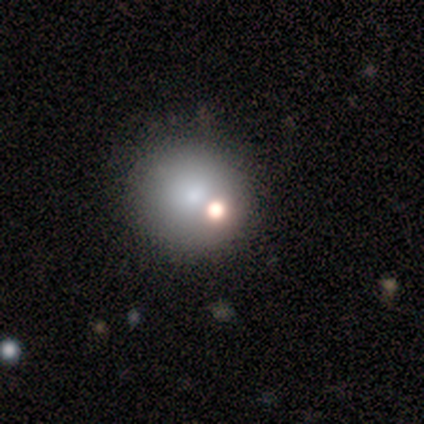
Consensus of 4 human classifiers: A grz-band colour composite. It shows a smooth galaxy with no disk features (100%) that is round (100%). Merging: none (100%).